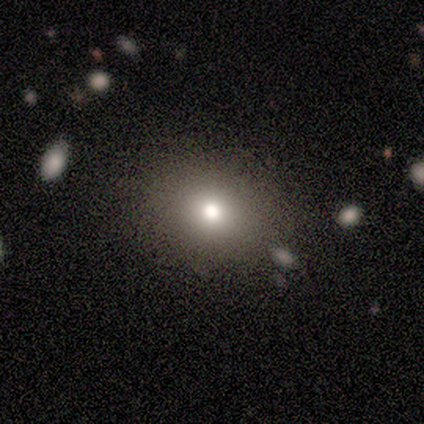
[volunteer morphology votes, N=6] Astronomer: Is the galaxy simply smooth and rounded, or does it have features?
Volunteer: smooth — 83%.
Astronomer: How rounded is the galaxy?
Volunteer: in between — 80%.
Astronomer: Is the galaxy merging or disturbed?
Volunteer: none — 100%.